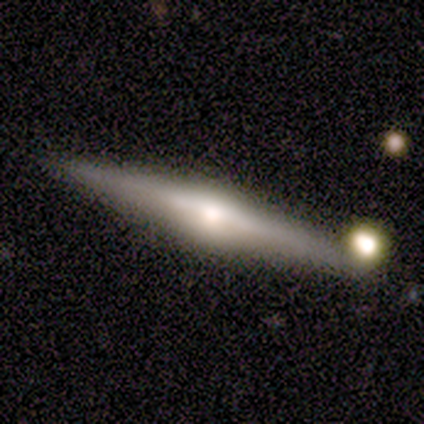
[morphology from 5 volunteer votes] type=featured or disk (100%); edge-on=yes (100%); edge-on bulge=rounded (100%); merging=none (80%).